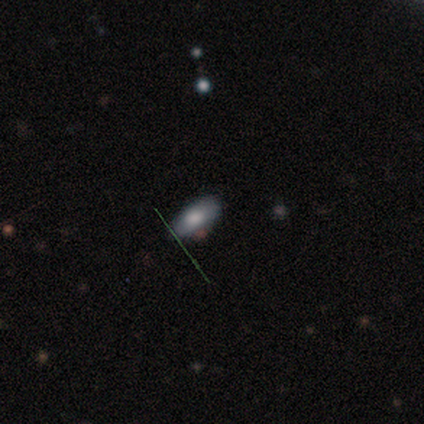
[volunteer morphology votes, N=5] Q: Smooth or featured?
A: smooth (60%); runner-up: featured or disk (20%)
Q: How rounded?
A: in between (100%)
Q: Merging?
A: none (100%)